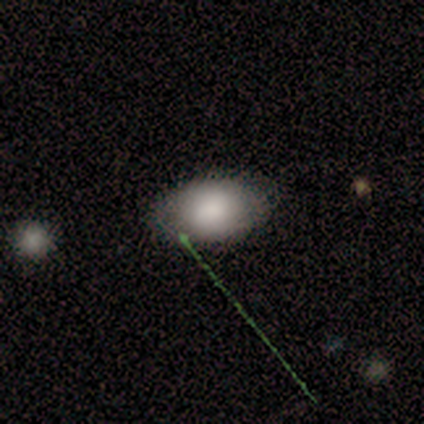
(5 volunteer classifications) Smooth or featured? 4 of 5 (80%) said smooth. How rounded? 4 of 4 (100%) said in between. Merging? 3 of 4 (75%) said none.